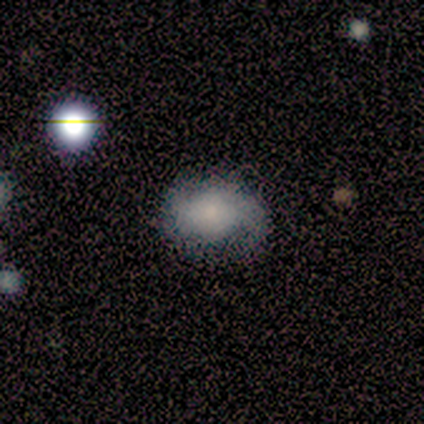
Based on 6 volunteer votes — Smooth or featured? 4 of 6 (67%) said smooth. How rounded? 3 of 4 (75%) said in between. Merging? 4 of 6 (67%) said none.